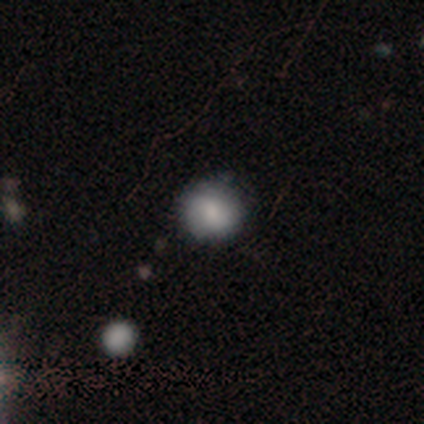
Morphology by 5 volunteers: Smooth or featured? 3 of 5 (60%) said smooth. How rounded? 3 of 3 (100%) said round. Merging? 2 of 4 (50%) said none.